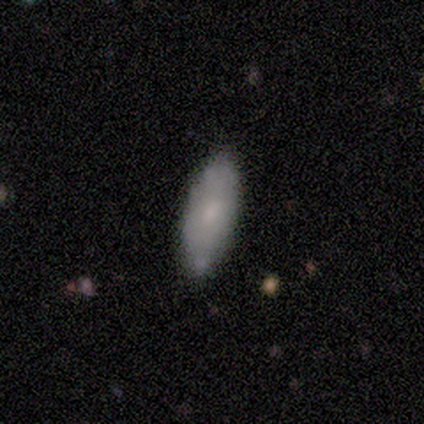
Smooth or featured? smooth (80%)
How rounded? in between (50%, tied with cigar-shaped)
Merging? none (100%)